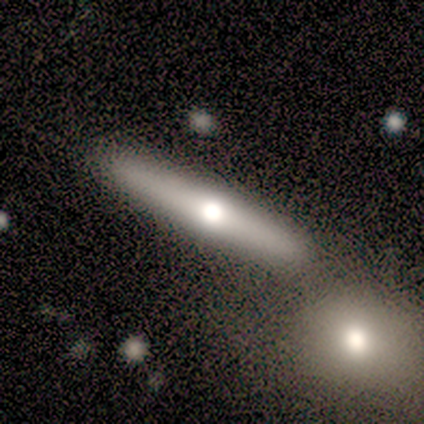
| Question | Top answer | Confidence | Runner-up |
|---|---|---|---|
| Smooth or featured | smooth | 50% | tied: featured or disk (50%) |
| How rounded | cigar-shaped | 100% | — |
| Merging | none | 100% | — |